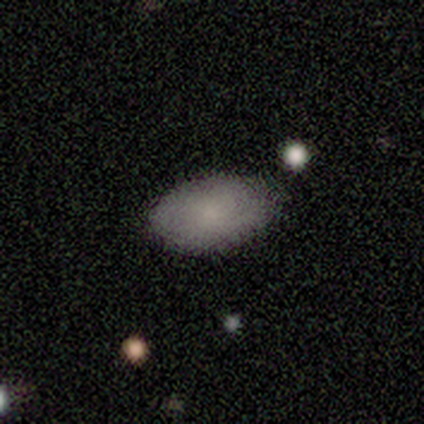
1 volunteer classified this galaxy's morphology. A smooth galaxy with no disk features (100%) that is in between round and cigar-shaped (100%). Merging: none (100%).